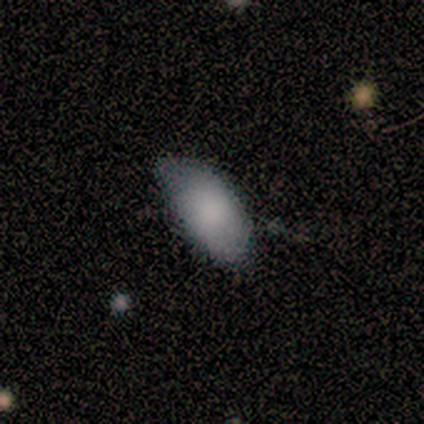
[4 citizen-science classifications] Smooth or featured?
  - smooth: 75% *
  - star or artifact: 25%
  - featured or disk: 0%
How rounded?
  - in between: 100% *
  - round: 0%
  - cigar-shaped: 0%
Merging?
  - none: 33% * (tied)
  - minor disturbance: 33% * (tied)
  - major disturbance: 33% * (tied)
  - merger: 0%